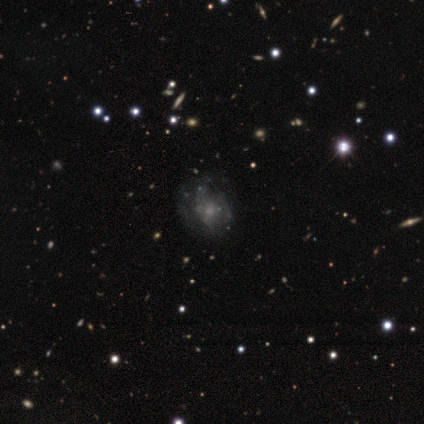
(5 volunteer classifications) Smooth or featured?
  - featured or disk: 80% *
  - star or artifact: 20%
  - smooth: 0%
Edge-on disk?
  - no: 100% *
  - yes: 0%
Bar?
  - weak: 50% * (tied)
  - no: 50% * (tied)
  - strong: 0%
Spiral arms?
  - yes: 50% * (tied)
  - no: 50% * (tied)
Spiral winding?
  - medium: 50% * (tied)
  - loose: 50% * (tied)
  - tight: 0%
Spiral arm count?
  - can't tell: 100% *
  - 1: 0%
  - 2: 0%
  - 3: 0%
  - 4: 0%
  - more than 4: 0%
Bulge size?
  - small: 75% *
  - large: 25%
  - dominant: 0%
  - moderate: 0%
  - none: 0%
Merging?
  - none: 50% * (tied)
  - major disturbance: 50% * (tied)
  - minor disturbance: 0%
  - merger: 0%